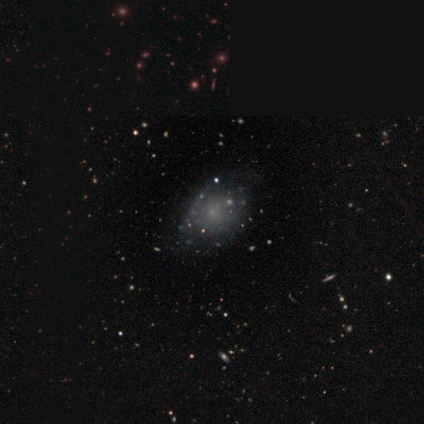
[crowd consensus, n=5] A smooth galaxy with no disk features (60%) that is in between round and cigar-shaped (100%). Merging: none (50%).